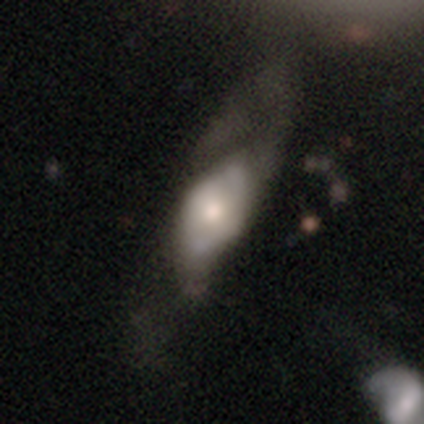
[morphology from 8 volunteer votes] Smooth or featured? featured or disk (100%)
Edge-on disk? no (88%)
Bar? no (100%)
Spiral arms? no (71%)
Bulge size? moderate (71%)
Merging? none (62%)